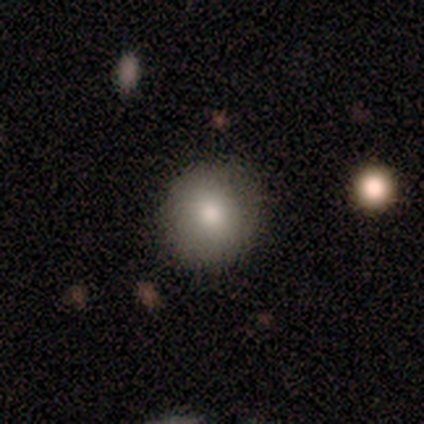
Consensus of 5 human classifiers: smooth_or_featured: smooth (p=1.00)
how_rounded: round (p=1.00)
merging: none (p=0.80) [alt: minor disturbance p=0.20]